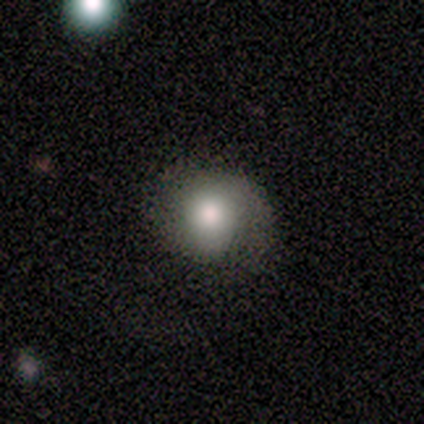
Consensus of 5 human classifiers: smooth 40% (tied), featured or disk 40% (tied), star or artifact 20%. Down the decision tree: how rounded — round (50%, tied with in between); merging — none (75%).